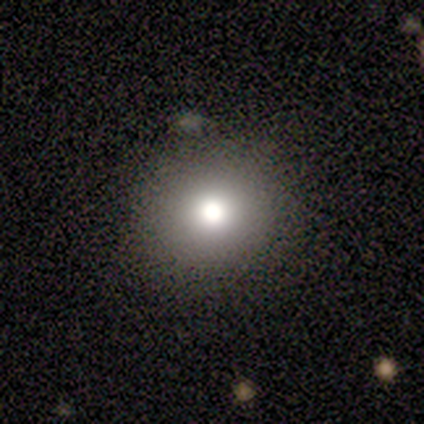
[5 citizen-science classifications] smooth 100%, featured or disk 0%, star or artifact 0%. Down the decision tree: how rounded — round (100%); merging — none (60%).